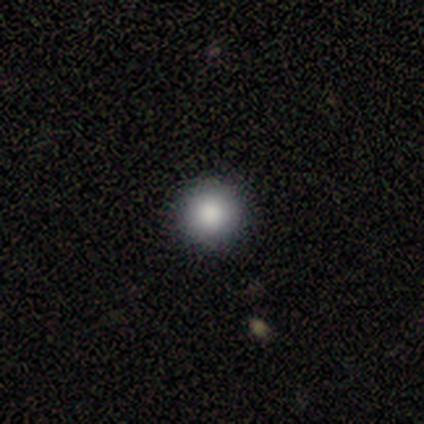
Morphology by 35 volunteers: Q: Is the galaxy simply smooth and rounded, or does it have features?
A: smooth — 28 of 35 (80%).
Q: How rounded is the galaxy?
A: round — 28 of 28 (100%).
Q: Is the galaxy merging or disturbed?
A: none — 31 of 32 (97%).